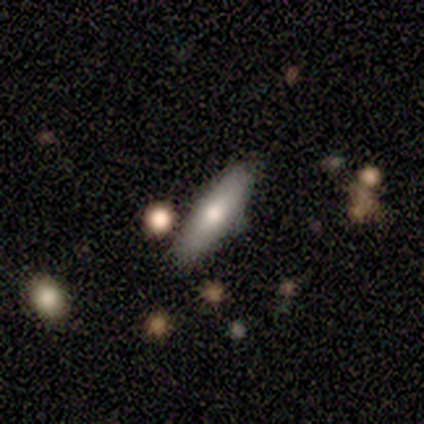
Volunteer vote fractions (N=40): Morphology: type=smooth (62%); roundness=cigar-shaped (84%); merging=none (74%).